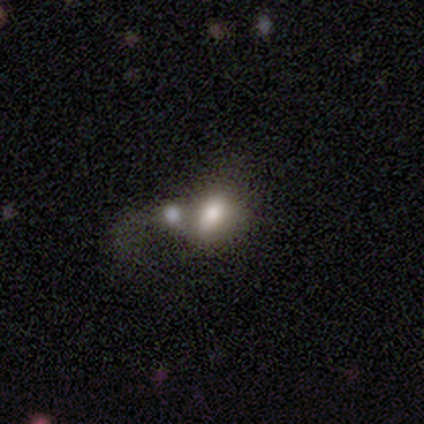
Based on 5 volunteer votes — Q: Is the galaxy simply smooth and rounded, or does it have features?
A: smooth — 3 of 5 (60%).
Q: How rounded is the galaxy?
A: in between — 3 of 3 (100%).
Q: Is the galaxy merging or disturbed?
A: merger — 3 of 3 (100%).